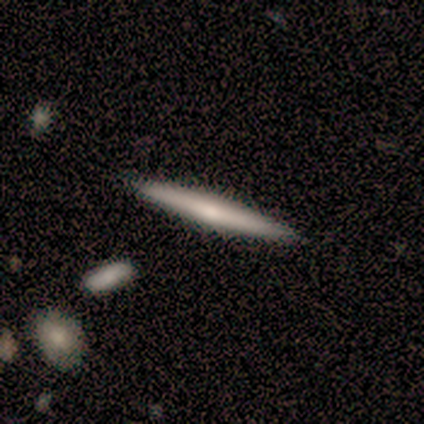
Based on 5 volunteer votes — A smooth galaxy with no disk features (40%, tied with featured or disk) that is cigar-shaped (100%).

Vote fractions:
- Smooth or featured? smooth: 40% (tied) / featured or disk: 40% (tied) / star or artifact: 20%
- How rounded? cigar-shaped: 100% / round: 0% / in between: 0%
- Merging? none: 100% / minor disturbance: 0% / major disturbance: 0% / merger: 0%